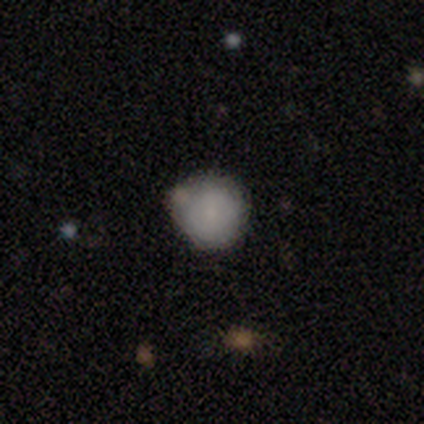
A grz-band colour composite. It shows a smooth galaxy with no disk features (80%) that is round (100%). Merging: none (75%).